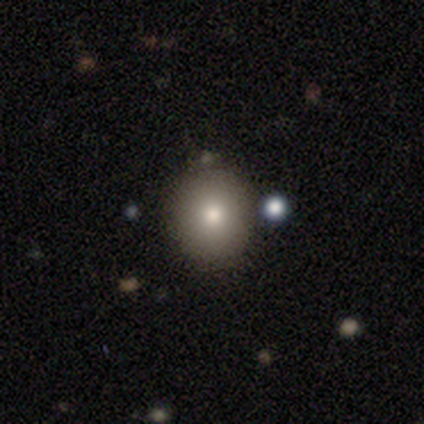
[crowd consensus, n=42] A smooth galaxy with no disk features (74%) that is round (61%).

Vote fractions:
- Smooth or featured? smooth: 74% / star or artifact: 17% / featured or disk: 10%
- How rounded? round: 61% / in between: 35% / cigar-shaped: 3%
- Merging? none: 86% / minor disturbance: 6% / merger: 6% / major disturbance: 3%